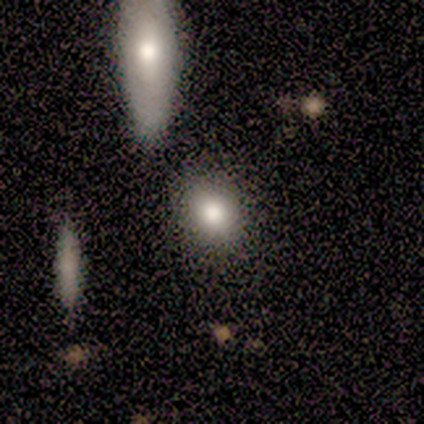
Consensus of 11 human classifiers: A smooth galaxy with no disk features (82%) that is round (67%). Merging: none (64%).